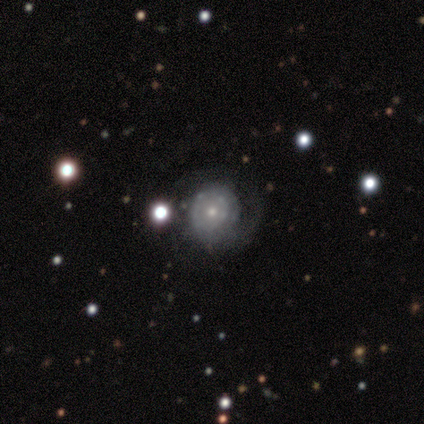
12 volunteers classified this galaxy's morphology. Q: Smooth or featured?
A: featured or disk (83%); runner-up: smooth (8%)
Q: Edge-on disk?
A: no (100%)
Q: Bar?
A: no (100%)
Q: Spiral arms?
A: yes (80%); runner-up: no (20%)
Q: Spiral winding?
A: tight (62%); runner-up: loose (25%)
Q: Spiral arm count?
A: can't tell (62%); runner-up: 1 (25%)
Q: Bulge size?
A: small (60%); runner-up: moderate (40%)
Q: Merging?
A: none (82%); runner-up: major disturbance (18%)